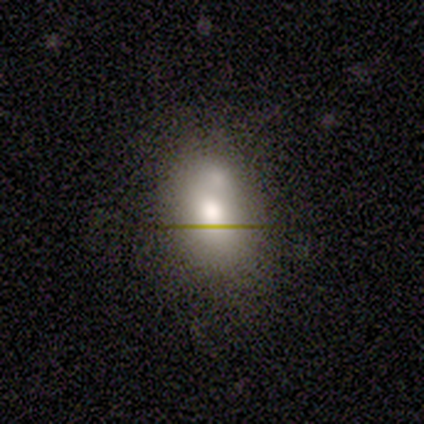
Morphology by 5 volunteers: A smooth galaxy with no disk features (100%) that is in between round and cigar-shaped (60%). Merging: none (80%).